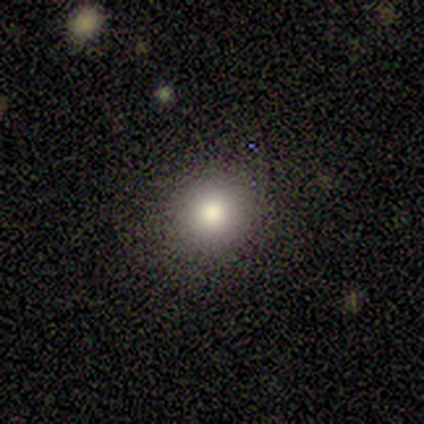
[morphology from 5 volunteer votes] A smooth galaxy with no disk features (80%) that is round (100%). Merging: none (100%).